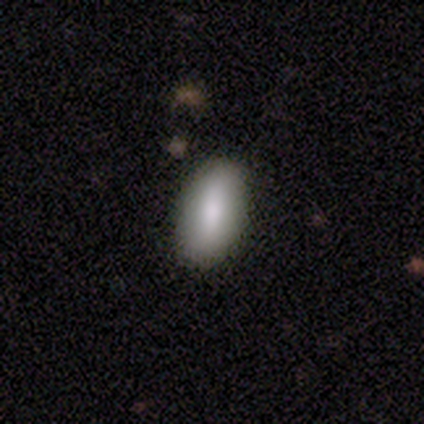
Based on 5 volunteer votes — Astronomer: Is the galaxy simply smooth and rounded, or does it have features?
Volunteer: smooth — 80%.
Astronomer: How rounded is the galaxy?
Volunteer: in between — 75%.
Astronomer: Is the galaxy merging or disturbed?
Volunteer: none — 80%.